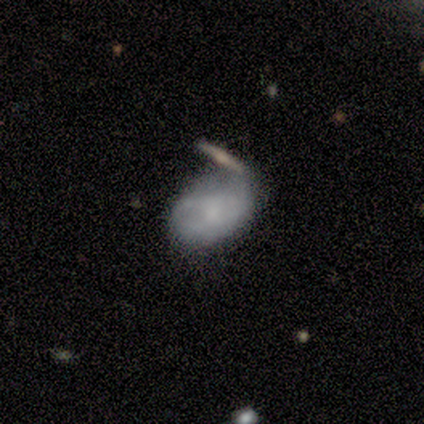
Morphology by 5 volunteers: A featured or disk galaxy (80%) with no bar (67%), no spiral arms (100%) and a moderate central bulge (33%, tied with small and none).

Vote fractions:
- Smooth or featured? featured or disk: 80% / smooth: 20% / star or artifact: 0%
- Edge-on disk? no: 75% / yes: 25%
- Bar? no: 67% / weak: 33% / strong: 0%
- Spiral arms? no: 100% / yes: 0%
- Bulge size? moderate: 33% (tied) / small: 33% (tied) / none: 33% (tied) / dominant: 0% / large: 0%
- Merging? none: 80% / merger: 20% / minor disturbance: 0% / major disturbance: 0%